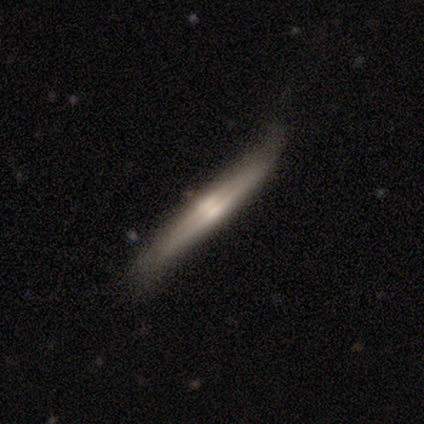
This appears to be a featured or disk galaxy (60%) viewed edge-on (100%) with no central bulge (67%). Merging: none (80%).